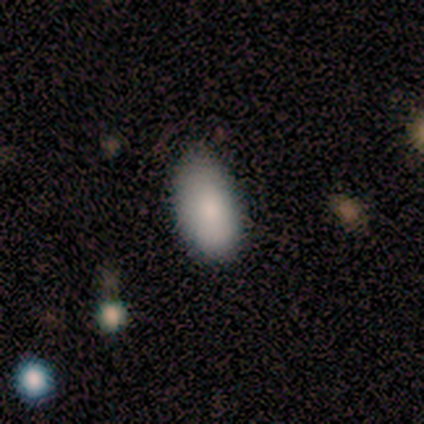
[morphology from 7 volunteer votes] Q: Smooth or featured?
A: smooth (71%); runner-up: featured or disk (14%)
Q: How rounded?
A: in between (100%)
Q: Merging?
A: none (83%); runner-up: minor disturbance (17%)